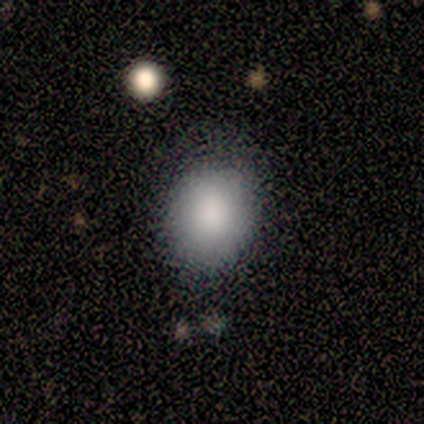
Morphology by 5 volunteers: smooth-or-featured: smooth: 100% | featured or disk: 0% | star or artifact: 0%
  how-rounded: round: 60% | in between: 40% | cigar-shaped: 0%
  merging: none: 80% | minor disturbance: 20% | major disturbance: 0% | merger: 0%